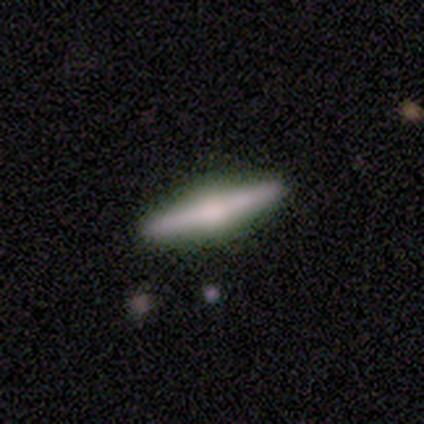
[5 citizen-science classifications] Overall: featured or disk (100%). Edge-on disk: yes (100%). Edge-on bulge: rounded (60%; boxy 20%). Merging: none (80%).